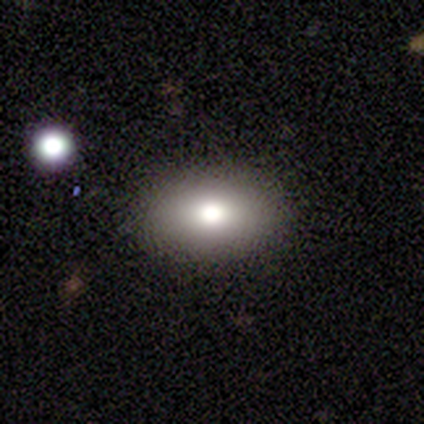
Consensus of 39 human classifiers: Smooth or featured: smooth — 79% (featured or disk — 18%)
How rounded: in between — 81% (round — 19%)
Merging: none — 89% (major disturbance — 5%)